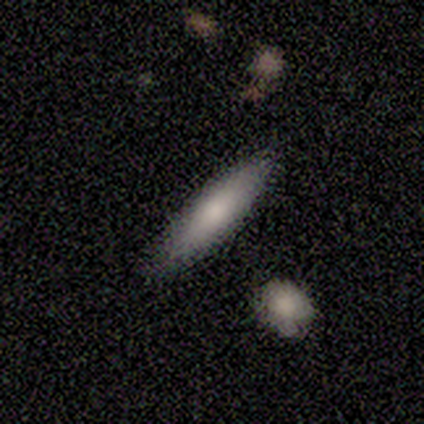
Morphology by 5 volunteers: Smooth or featured: smooth — 80% (featured or disk — 20%)
How rounded: in between — 50% (tied with cigar-shaped — 50%)
Merging: none — 100%